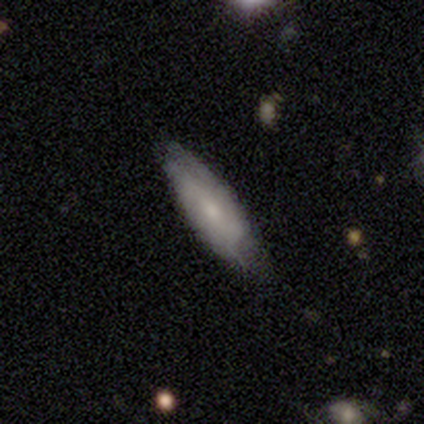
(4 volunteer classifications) Smooth or featured? 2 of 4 (50%, tied with featured or disk) said smooth. How rounded? 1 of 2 (50%, tied with cigar-shaped) said in between. Merging? 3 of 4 (75%) said minor disturbance.